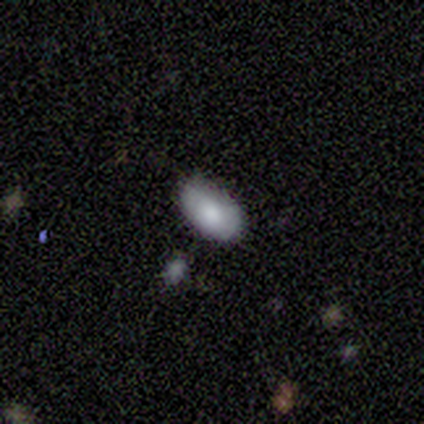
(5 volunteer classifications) smooth_or_featured: smooth (p=0.80) [alt: featured or disk p=0.20]
how_rounded: in between (p=1.00)
merging: none (p=1.00)